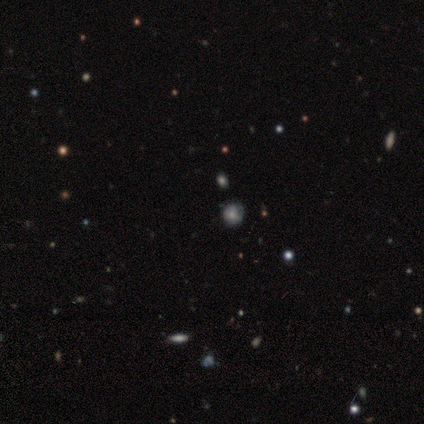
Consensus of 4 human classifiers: A featured or disk galaxy (50%, tied with star or artifact) with no bar (100%), no spiral arms (100%) and a large central bulge (50%, tied with none). Merging: none (100%).